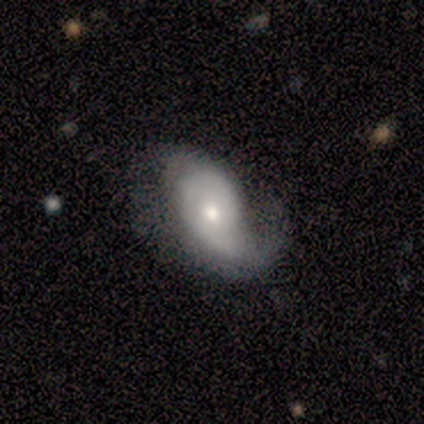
Smooth or featured?
  - featured or disk: 100% *
  - smooth: 0%
  - star or artifact: 0%
Edge-on disk?
  - no: 100% *
  - yes: 0%
Bar?
  - no: 100% *
  - strong: 0%
  - weak: 0%
Spiral arms?
  - yes: 100% *
  - no: 0%
Spiral winding?
  - medium: 50% *
  - loose: 33%
  - tight: 17%
Spiral arm count?
  - 1: 67% *
  - 2: 33%
  - 3: 0%
  - 4: 0%
  - more than 4: 0%
  - can't tell: 0%
Bulge size?
  - small: 50% *
  - moderate: 33%
  - large: 17%
  - dominant: 0%
  - none: 0%
Merging?
  - none: 50% *
  - major disturbance: 33%
  - minor disturbance: 17%
  - merger: 0%